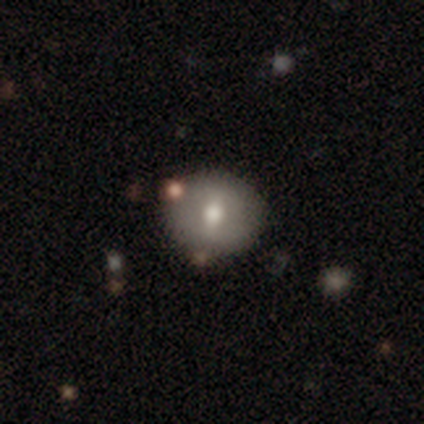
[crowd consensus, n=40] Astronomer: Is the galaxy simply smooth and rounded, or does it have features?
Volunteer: smooth — 55% (runner-up: featured or disk, 35%).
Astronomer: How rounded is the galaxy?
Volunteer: round — 82%.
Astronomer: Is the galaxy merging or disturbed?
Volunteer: none — 83%.